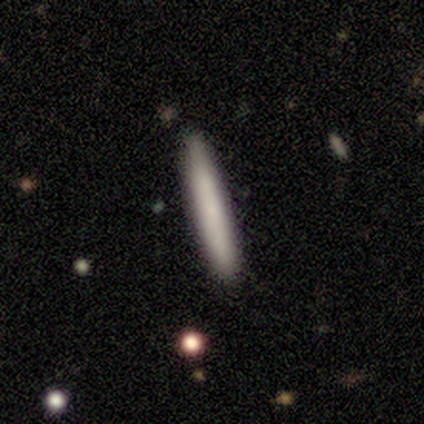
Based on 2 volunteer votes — This appears to be a smooth galaxy with no disk features (100%) that is cigar-shaped (100%). Merging: none (50%, tied with minor disturbance).